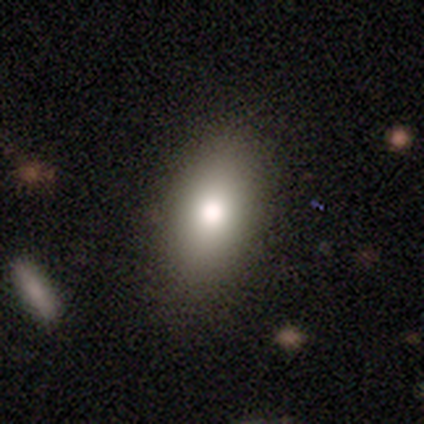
Overall: smooth (77%). How rounded: in between (94%). Merging: none (60%).